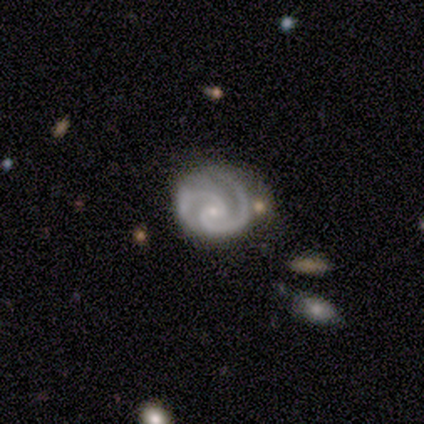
Volunteers were most divided on "bar" (2-way tie): weak: 40%, no: 40%, strong: 20%. More confident: smooth or featured — featured or disk (100%); edge-on disk — no (100%); spiral arms — yes (100%); spiral arm count — 2 (100%); bulge size — small (100%); spiral winding — tight (60%); merging — none (60%).